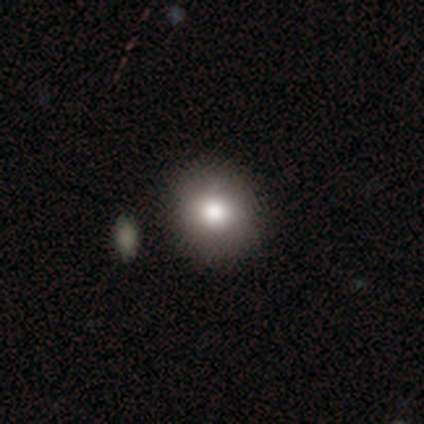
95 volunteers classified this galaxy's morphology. type=smooth (73%); roundness=round (91%); merging=none (83%).